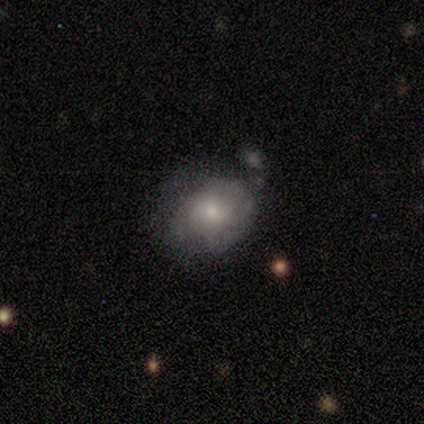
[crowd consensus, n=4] Smooth or featured? 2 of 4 (50%) said smooth. How rounded? 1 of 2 (50%, tied with in between) said round. Merging? 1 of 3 (33%, tied with minor disturbance and major disturbance) said none.